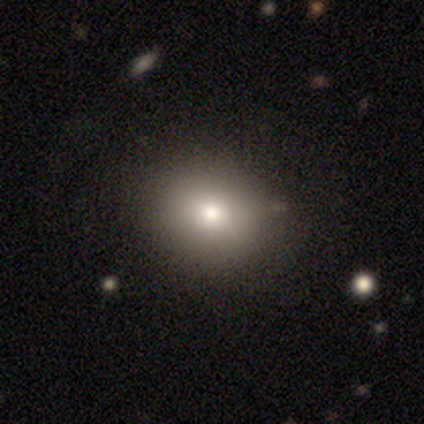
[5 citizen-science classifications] Overall: smooth (60%; star or artifact 40%). How rounded: in between (67%; round 33%). Merging: none (100%).